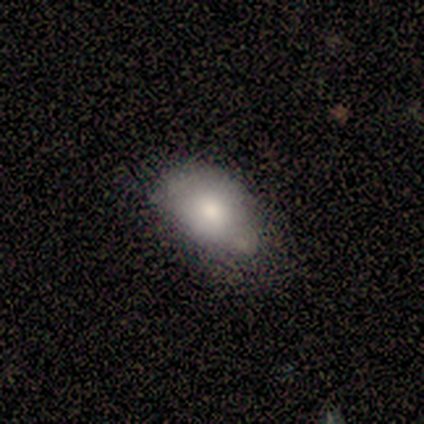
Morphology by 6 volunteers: This appears to be a smooth galaxy with no disk features (50%) that is in between round and cigar-shaped (100%). Merging: minor disturbance (80%).